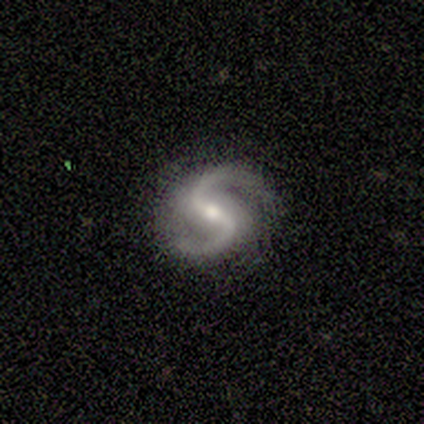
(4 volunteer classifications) Overall: featured or disk (100%). Edge-on disk: no (75%). Bar: weak (100%). Spiral arms: yes (100%). Spiral arm count: 2 (100%). Spiral winding: tight (33%, tied with medium and loose). Bulge size: small (67%; moderate 33%). Merging: none (100%).